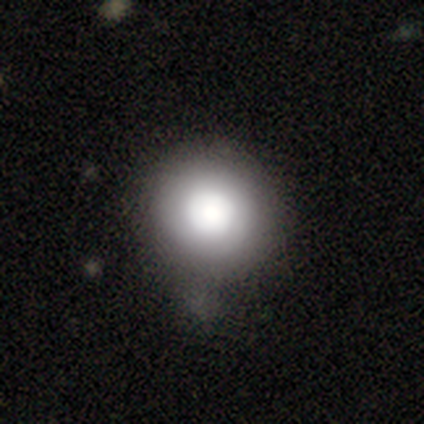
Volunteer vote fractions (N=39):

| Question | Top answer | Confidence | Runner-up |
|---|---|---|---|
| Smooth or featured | smooth | 82% | featured or disk (15%) |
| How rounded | round | 100% | — |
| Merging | none | 37% | minor disturbance (21%) |